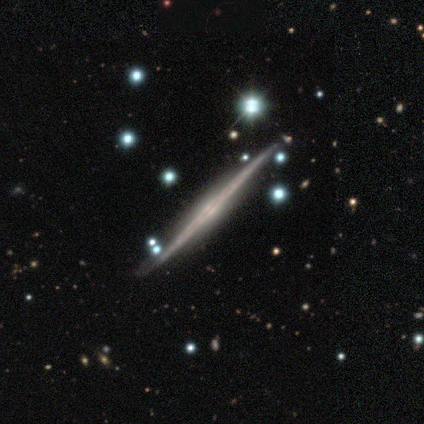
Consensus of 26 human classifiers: This appears to be a featured or disk galaxy (77%) viewed edge-on (100%) with no central bulge (55%). Merging: none (87%).